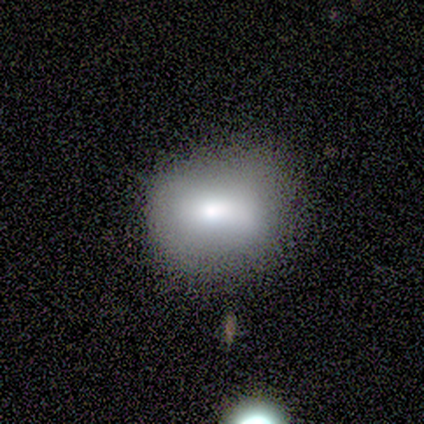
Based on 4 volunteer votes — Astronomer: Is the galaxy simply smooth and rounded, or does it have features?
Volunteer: smooth — 100%.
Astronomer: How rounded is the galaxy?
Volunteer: round — 50%.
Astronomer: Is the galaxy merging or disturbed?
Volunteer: none — 50%, tied with major disturbance at 50%.